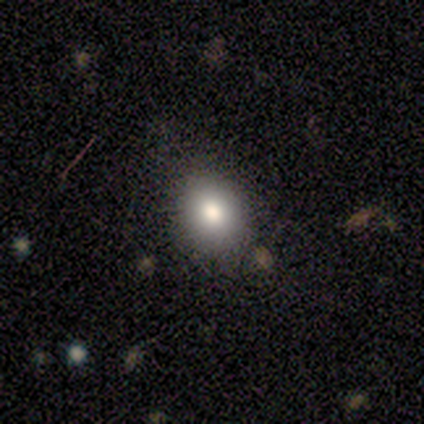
This appears to be a smooth galaxy with no disk features (60%) that is round (67%). Merging: none (80%).